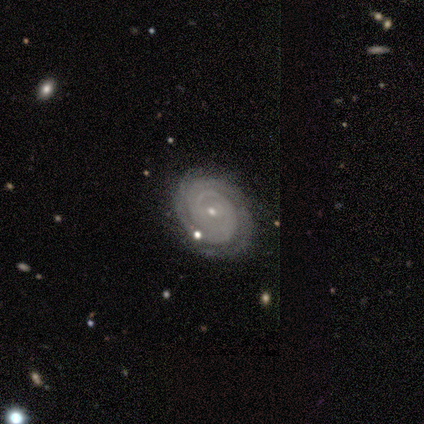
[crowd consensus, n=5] Smooth or featured?
  - featured or disk: 100% *
  - smooth: 0%
  - star or artifact: 0%
Edge-on disk?
  - no: 100% *
  - yes: 0%
Bar?
  - no: 100% *
  - strong: 0%
  - weak: 0%
Spiral arms?
  - yes: 100% *
  - no: 0%
Spiral winding?
  - tight: 100% *
  - medium: 0%
  - loose: 0%
Spiral arm count?
  - can't tell: 40% *
  - 2: 20%
  - 3: 20%
  - more than 4: 20%
  - 1: 0%
  - 4: 0%
Bulge size?
  - small: 80% *
  - moderate: 20%
  - dominant: 0%
  - large: 0%
  - none: 0%
Merging?
  - none: 100% *
  - minor disturbance: 0%
  - major disturbance: 0%
  - merger: 0%